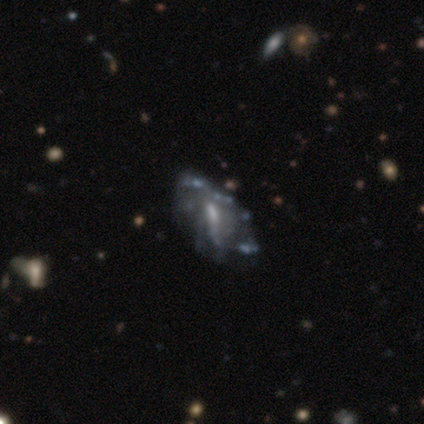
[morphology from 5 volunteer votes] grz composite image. It shows a featured or disk galaxy (100%) with no bar (60%), tight (33%, tied with medium and loose) spiral arms (60%) and a small central bulge (60%). Merging: none (40%, tied with minor disturbance).